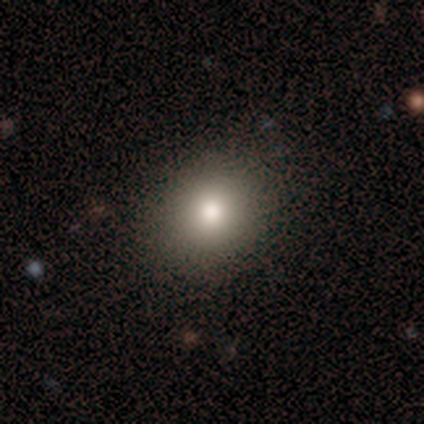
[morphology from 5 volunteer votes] type=smooth (80%); roundness=round (50%); merging=none (100%).